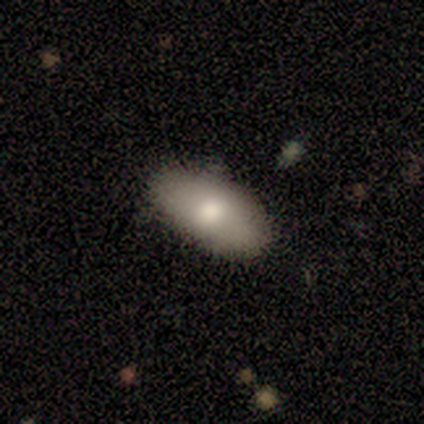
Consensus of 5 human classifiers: smooth-or-featured: smooth: 60% | featured or disk: 40% | star or artifact: 0%
  how-rounded: in between: 100% | round: 0% | cigar-shaped: 0%
  merging: none: 100% | minor disturbance: 0% | major disturbance: 0% | merger: 0%